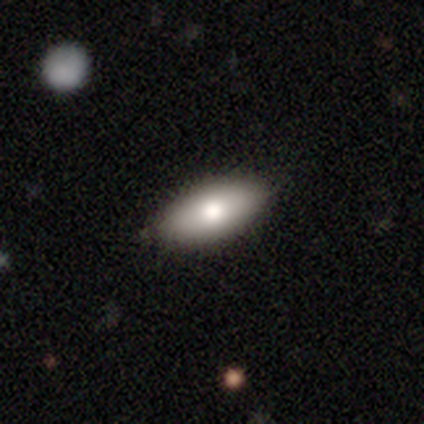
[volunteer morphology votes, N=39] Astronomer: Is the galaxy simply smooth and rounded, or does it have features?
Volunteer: smooth — 82%.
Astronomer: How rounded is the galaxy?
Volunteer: in between — 84%.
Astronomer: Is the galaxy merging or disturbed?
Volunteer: none — 64%.